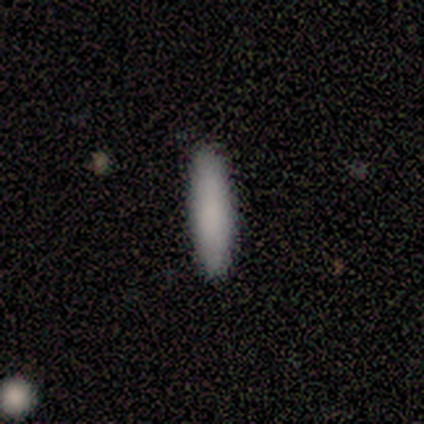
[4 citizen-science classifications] Volunteers were most divided on "smooth or featured" (2-way tie): smooth: 50%, star or artifact: 50%, featured or disk: 0%. More confident: how rounded — cigar-shaped (100%); merging — none (100%).